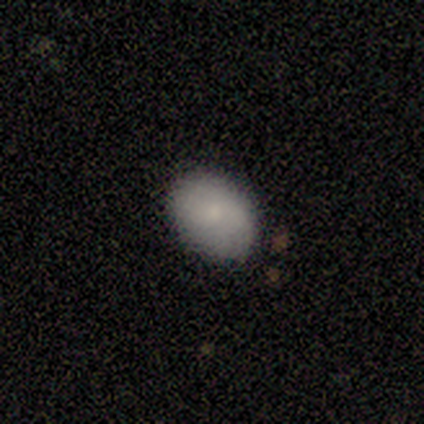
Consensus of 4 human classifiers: Smooth or featured? smooth (75%)
How rounded? in between (100%)
Merging? none (100%)